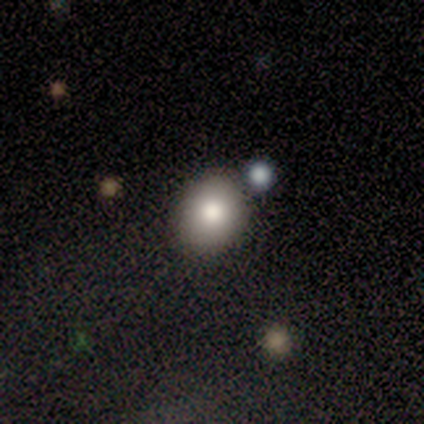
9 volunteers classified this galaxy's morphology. This is clearly a smooth galaxy (89%). How rounded: likely round (62%). Merging: likely none (75%).